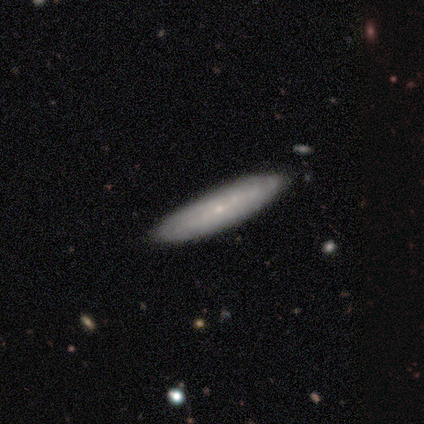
smooth-or-featured: featured or disk: 52% | smooth: 40% | star or artifact: 8%
  disk-edge-on: yes: 50% (tied) | no: 50% (tied)
    edge-on-bulge: rounded: 54% | none: 46% | boxy: 0%
  merging: none: 76% | minor disturbance: 22% | merger: 2% | major disturbance: 0%